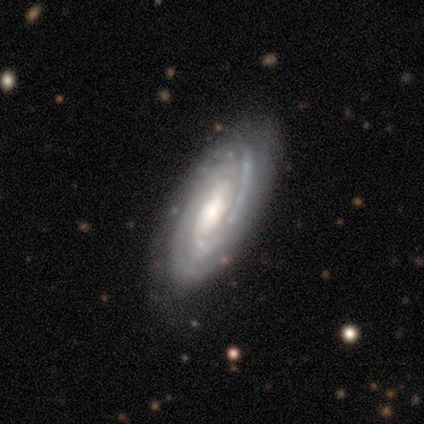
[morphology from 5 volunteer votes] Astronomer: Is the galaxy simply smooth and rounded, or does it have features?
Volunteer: featured or disk — 80%.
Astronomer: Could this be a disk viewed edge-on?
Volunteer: no — 100%.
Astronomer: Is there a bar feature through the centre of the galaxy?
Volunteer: no — 75%.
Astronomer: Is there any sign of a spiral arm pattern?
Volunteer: yes — 100%.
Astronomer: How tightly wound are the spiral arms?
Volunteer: tight — 100%.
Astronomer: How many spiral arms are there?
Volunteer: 2 — 75%.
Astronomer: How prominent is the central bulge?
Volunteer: moderate — 75%.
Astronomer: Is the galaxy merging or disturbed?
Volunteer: none — 100%.